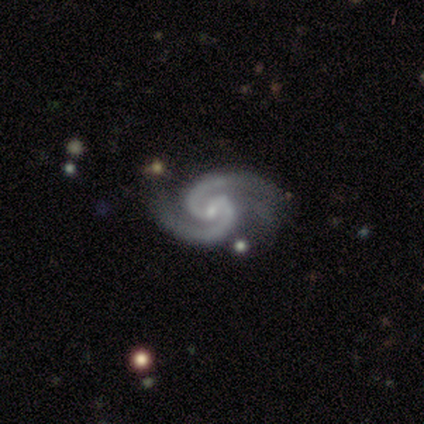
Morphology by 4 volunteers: smooth-or-featured: featured or disk: 75% | star or artifact: 25% | smooth: 0%
  disk-edge-on: no: 100% | yes: 0%
    bar: weak: 100% | strong: 0% | no: 0%
    has-spiral-arms: yes: 100% | no: 0%
      spiral-winding: medium: 67% | tight: 33% | loose: 0%
      spiral-arm-count: 2: 100% | 1: 0% | 3: 0% | 4: 0% | more than 4: 0% | can't tell: 0%
    bulge-size: small: 67% | moderate: 33% | dominant: 0% | large: 0% | none: 0%
  merging: minor disturbance: 67% | major disturbance: 33% | none: 0% | merger: 0%